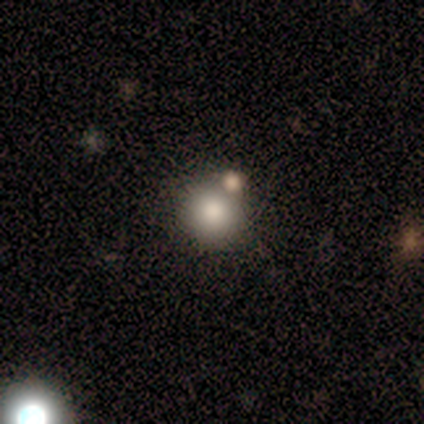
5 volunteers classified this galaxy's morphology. smooth_or_featured: smooth (p=1.00)
how_rounded: round (p=1.00)
merging: none (p=1.00)